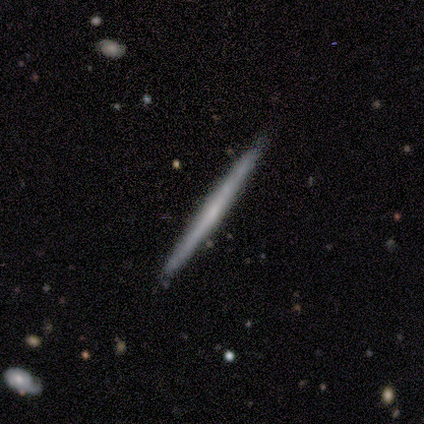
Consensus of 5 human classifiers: Smooth or featured: featured or disk — 80% (smooth — 20%)
Edge-on disk: yes — 100%
Edge-on bulge: none — 75% (rounded — 25%)
Merging: none — 100%